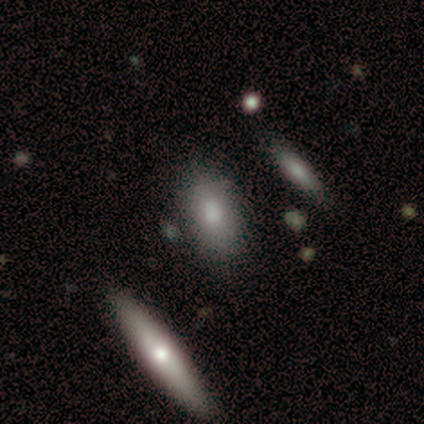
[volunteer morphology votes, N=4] smooth_or_featured: smooth (p=0.50) [tied with: featured or disk p=0.50]
how_rounded: in between (p=1.00)
merging: none (p=0.50) [tied with: minor disturbance p=0.50]